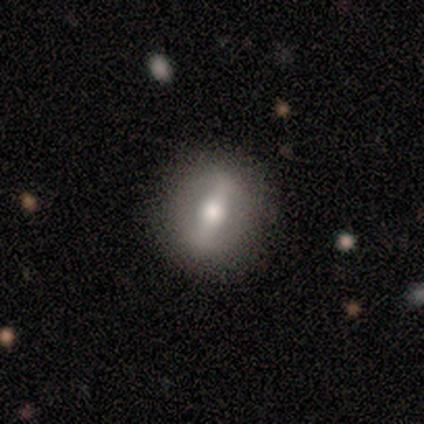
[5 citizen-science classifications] smooth-or-featured: smooth: 60% | featured or disk: 40% | star or artifact: 0%
  how-rounded: round: 67% | cigar-shaped: 33% | in between: 0%
  merging: none: 100% | minor disturbance: 0% | major disturbance: 0% | merger: 0%